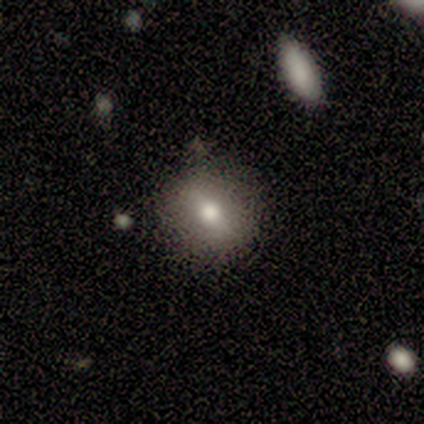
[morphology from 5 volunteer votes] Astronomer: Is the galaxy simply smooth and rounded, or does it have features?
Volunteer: featured or disk — 60% (runner-up: smooth, 40%).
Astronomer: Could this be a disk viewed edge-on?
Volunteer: yes — 67%.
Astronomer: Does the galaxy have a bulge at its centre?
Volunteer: rounded — 100%.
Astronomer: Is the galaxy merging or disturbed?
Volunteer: none — 80%.